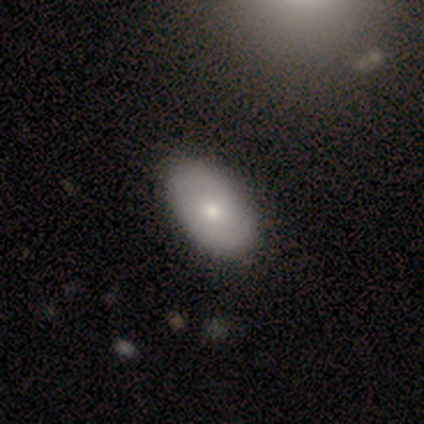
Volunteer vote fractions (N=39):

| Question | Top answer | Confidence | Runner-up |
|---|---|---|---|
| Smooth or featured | smooth | 69% | featured or disk (26%) |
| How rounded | in between | 93% | round (7%) |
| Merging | none | 70% | minor disturbance (8%) |